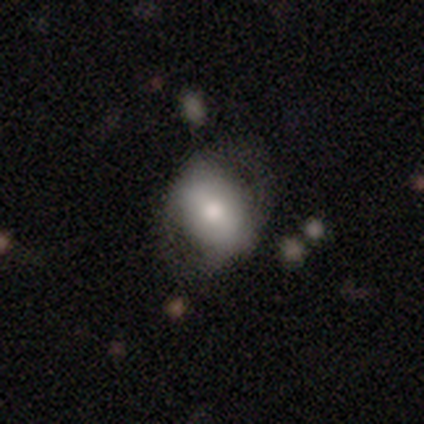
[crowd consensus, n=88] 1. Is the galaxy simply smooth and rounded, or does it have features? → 57% smooth, 36% featured or disk, 7% star or artifact.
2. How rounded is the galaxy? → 76% in between, 20% round, 4% cigar-shaped.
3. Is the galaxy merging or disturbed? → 62% none, 23% minor disturbance, 13% major disturbance, 1% merger.